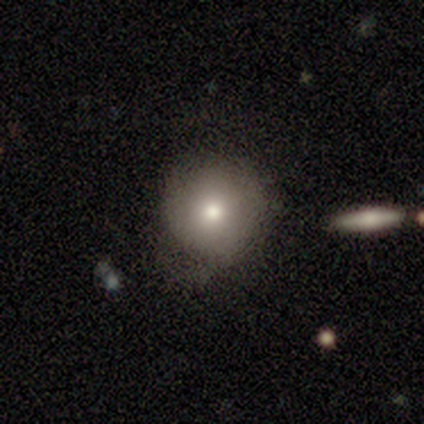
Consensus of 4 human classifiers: smooth_or_featured: smooth (p=1.00)
how_rounded: round (p=0.75) [alt: in between p=0.25]
merging: none (p=0.75) [alt: minor disturbance p=0.25]